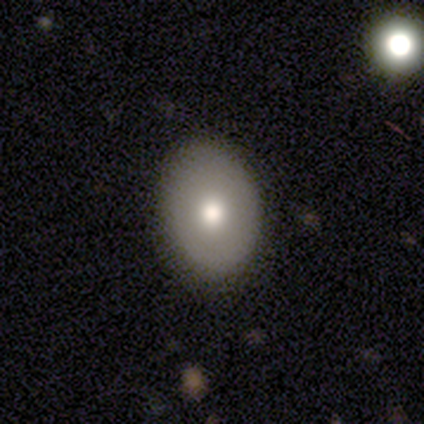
Smooth or featured?
  - smooth: 80% *
  - featured or disk: 12%
  - star or artifact: 8%
How rounded?
  - in between: 72% *
  - round: 28%
  - cigar-shaped: 0%
Merging?
  - none: 89% *
  - minor disturbance: 5%
  - major disturbance: 3%
  - merger: 3%